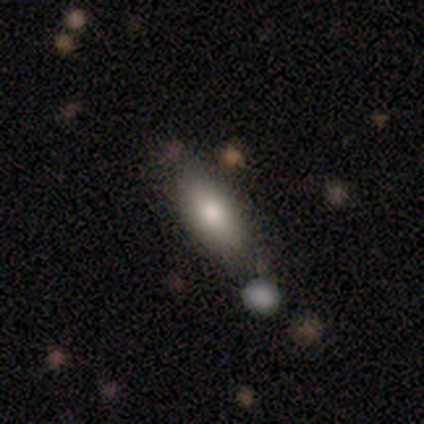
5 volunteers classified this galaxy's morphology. Volunteers were most divided on "how rounded": in between: 67%, cigar-shaped: 33%, round: 0%. More confident: merging — none (100%); smooth or featured — smooth (60%).